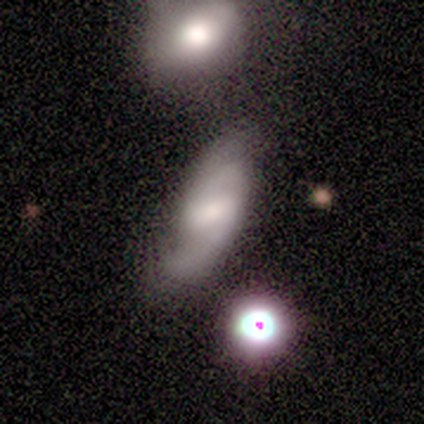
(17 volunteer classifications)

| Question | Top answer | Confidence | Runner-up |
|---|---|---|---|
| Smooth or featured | featured or disk | 59% | smooth (29%) |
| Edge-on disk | no | 100% | — |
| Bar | strong | 50% | tied: weak (50%) |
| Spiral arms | yes | 100% | — |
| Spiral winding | medium | 60% | tight (20%) |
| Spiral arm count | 2 | 90% | can't tell (10%) |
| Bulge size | moderate | 40% | tied: small (40%) |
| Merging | none | 47% | minor disturbance (33%) |